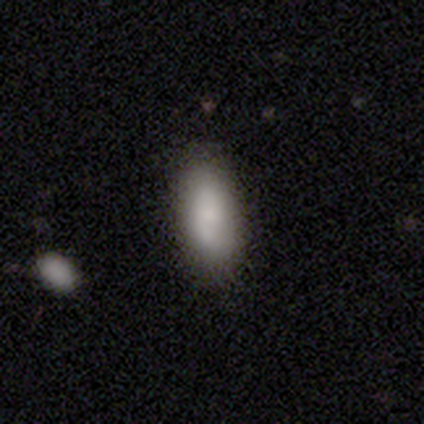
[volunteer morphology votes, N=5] Smooth or featured? smooth (60%)
How rounded? in between (100%)
Merging? none (60%)